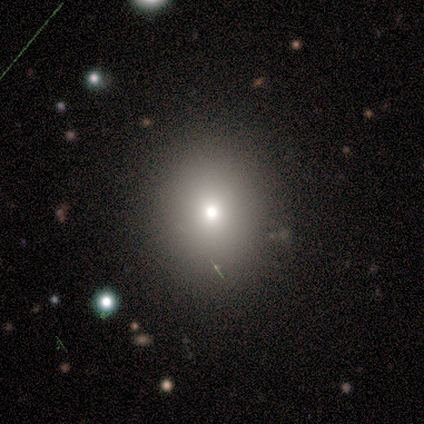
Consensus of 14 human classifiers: Smooth or featured?
  - smooth: 79% *
  - featured or disk: 14%
  - star or artifact: 7%
How rounded?
  - round: 73% *
  - in between: 27%
  - cigar-shaped: 0%
Merging?
  - none: 85% *
  - minor disturbance: 15%
  - major disturbance: 0%
  - merger: 0%